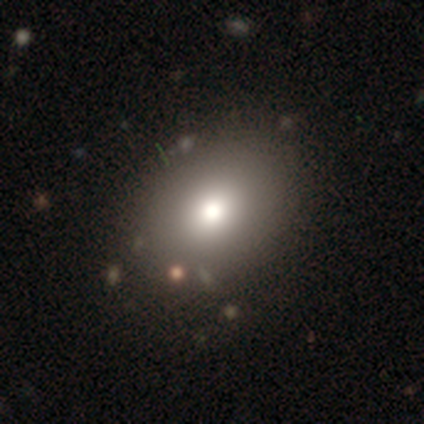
smooth 92%, featured or disk 8%, star or artifact 0%. Down the decision tree: how rounded — in between (64%); merging — none (83%).